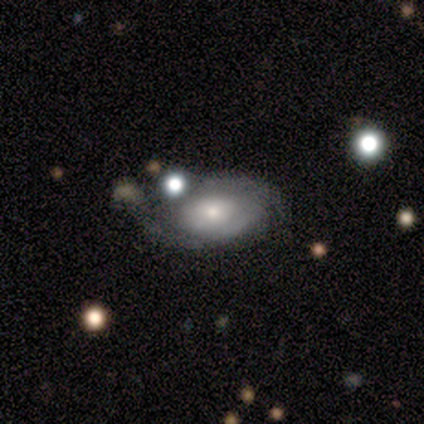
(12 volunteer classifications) Smooth or featured?
  - featured or disk: 50% *
  - smooth: 42%
  - star or artifact: 8%
Edge-on disk?
  - no: 83% *
  - yes: 17%
Bar?
  - no: 80% *
  - weak: 20%
  - strong: 0%
Spiral arms?
  - yes: 80% *
  - no: 20%
Spiral winding?
  - tight: 100% *
  - medium: 0%
  - loose: 0%
Spiral arm count?
  - 2: 50% * (tied)
  - can't tell: 50% * (tied)
  - 1: 0%
  - 3: 0%
  - 4: 0%
  - more than 4: 0%
Bulge size?
  - small: 60% *
  - large: 40%
  - dominant: 0%
  - moderate: 0%
  - none: 0%
Merging?
  - none: 55% *
  - minor disturbance: 36%
  - merger: 9%
  - major disturbance: 0%